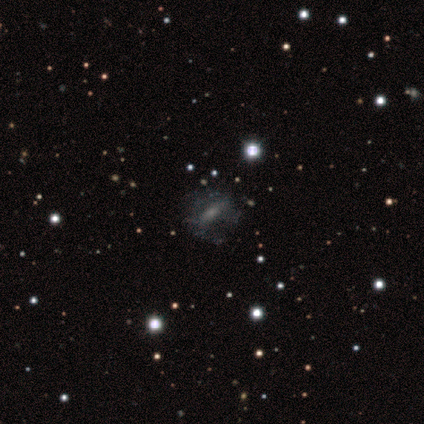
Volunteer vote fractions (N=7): A smooth galaxy with no disk features (43%) that is in between round and cigar-shaped (67%).

Vote fractions:
- Smooth or featured? smooth: 43% / featured or disk: 29% / star or artifact: 29%
- How rounded? in between: 67% / cigar-shaped: 33% / round: 0%
- Merging? none: 60% / minor disturbance: 20% / major disturbance: 20% / merger: 0%